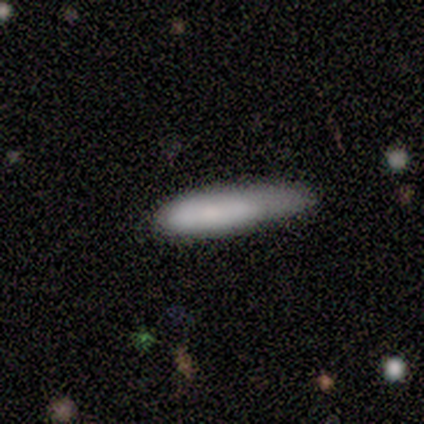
Smooth or featured: smooth — 100%
How rounded: cigar-shaped — 60% (in between — 40%)
Merging: minor disturbance — 40% (tied with merger — 40%)